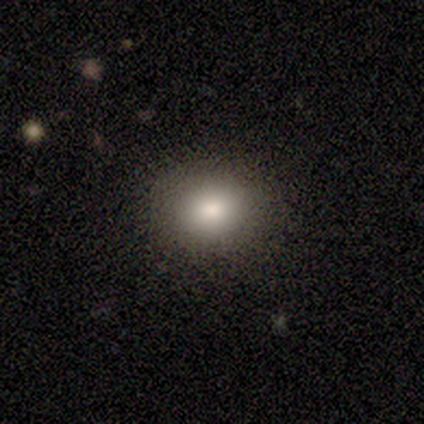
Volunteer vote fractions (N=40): This is clearly a smooth galaxy (85%). How rounded: likely round (62%). Merging: clearly none (89%).